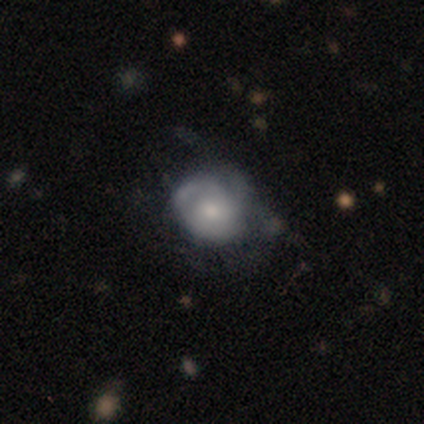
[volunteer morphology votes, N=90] Smooth or featured: smooth — 47% (featured or disk — 44%)
How rounded: round — 67% (in between — 33%)
Merging: none — 43% (minor disturbance — 29%)